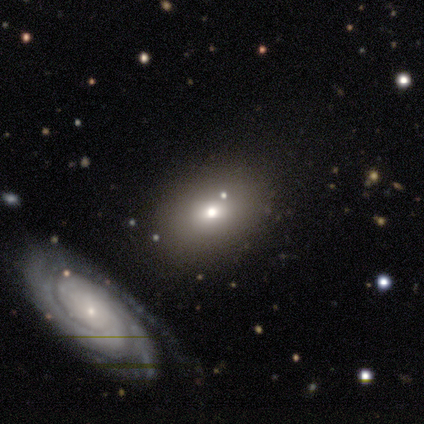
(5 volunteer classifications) This appears to be a smooth galaxy with no disk features (100%) that is in between round and cigar-shaped (60%). Merging: none (100%).